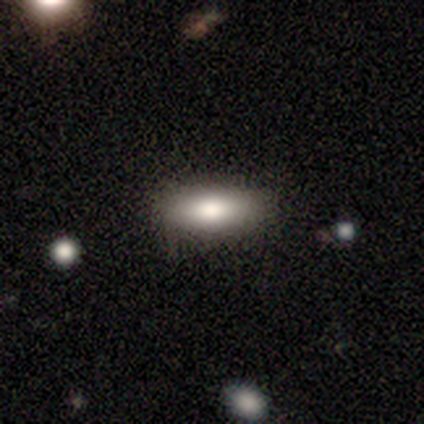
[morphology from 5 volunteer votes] This is marginally a smooth galaxy (40%, tied with star or artifact). How rounded: clearly in between (100%). Merging: clearly none (100%).